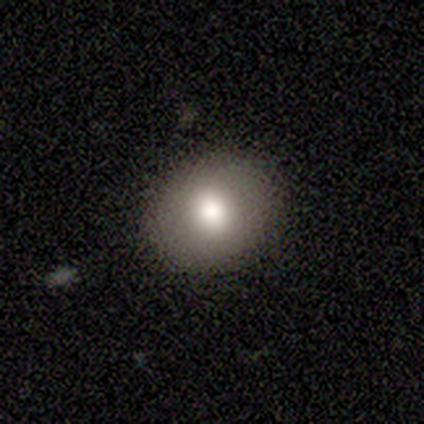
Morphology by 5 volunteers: smooth-or-featured: smooth: 100% | featured or disk: 0% | star or artifact: 0%
  how-rounded: round: 60% | in between: 40% | cigar-shaped: 0%
  merging: none: 80% | minor disturbance: 20% | major disturbance: 0% | merger: 0%